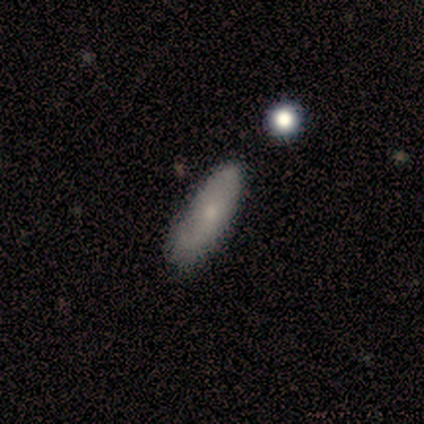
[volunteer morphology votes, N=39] Volunteers were most divided on "how rounded": in between: 64%, cigar-shaped: 36%, round: 0%. More confident: smooth or featured — smooth (72%); merging — none (64%).